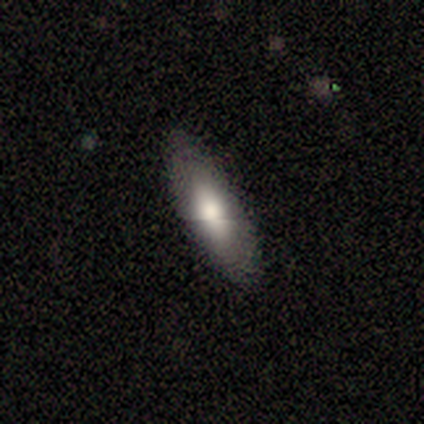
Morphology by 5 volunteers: Smooth or featured: smooth — 80% (featured or disk — 20%)
How rounded: in between — 75% (cigar-shaped — 25%)
Merging: none — 100%